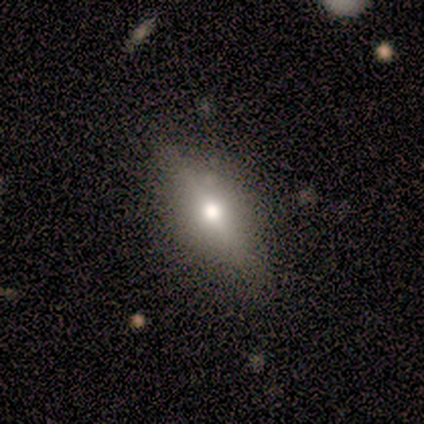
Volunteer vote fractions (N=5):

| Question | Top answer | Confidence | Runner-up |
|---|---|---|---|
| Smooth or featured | featured or disk | 80% | star or artifact (20%) |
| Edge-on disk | yes | 50% | tied: no (50%) |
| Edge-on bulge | rounded | 100% | — |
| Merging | none | 100% | — |